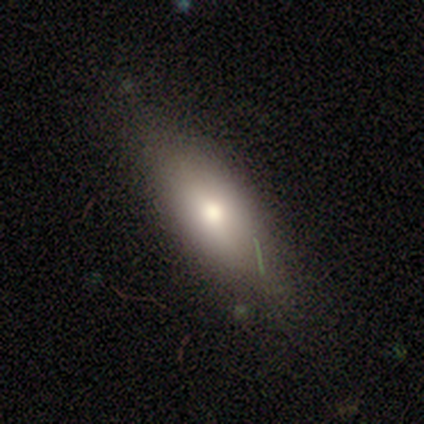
A smooth galaxy with no disk features (82%) that is in between round and cigar-shaped (69%). Merging: none (66%).